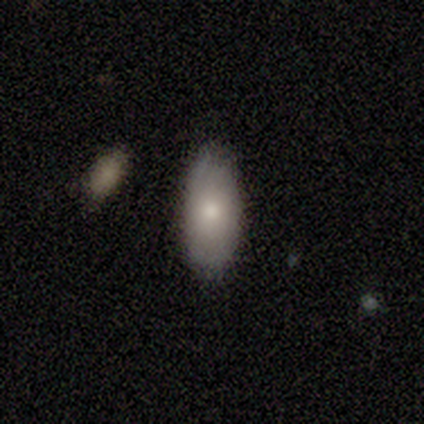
Volunteers were most divided on "smooth or featured": featured or disk: 60%, smooth: 40%, star or artifact: 0%. More confident: edge-on disk — no (100%); bar — no (100%); spiral arms — no (100%); merging — none (80%); bulge size — small (67%).